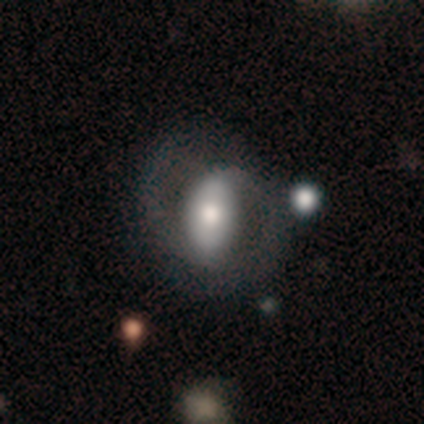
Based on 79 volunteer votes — Smooth or featured: featured or disk — 52% (smooth — 43%)
Edge-on disk: no — 93% (yes — 7%)
Bar: strong — 47% (weak — 26%)
Spiral arms: yes — 84% (no — 16%)
Spiral winding: loose — 41% (medium — 38%)
Spiral arm count: 2 — 88% (1 — 9%)
Bulge size: moderate — 58% (large — 26%)
Merging: none — 29% (major disturbance — 11%)